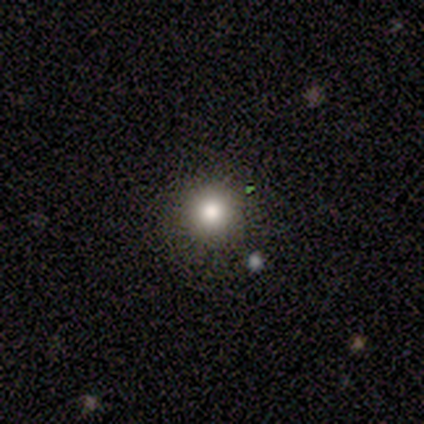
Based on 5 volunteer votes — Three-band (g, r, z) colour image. It shows a smooth galaxy with no disk features (100%) that is round (80%). Merging: none (80%).